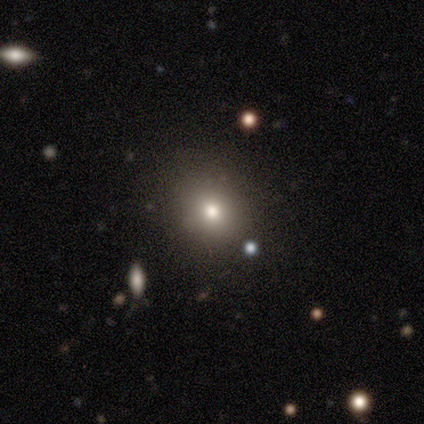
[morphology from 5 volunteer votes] Overall: smooth (60%; featured or disk 20%). How rounded: round (67%; in between 33%). Merging: none (100%).